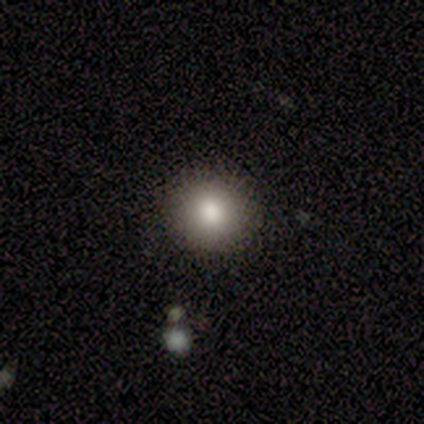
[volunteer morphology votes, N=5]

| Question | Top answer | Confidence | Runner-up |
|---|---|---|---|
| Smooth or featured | smooth | 100% | — |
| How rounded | round | 100% | — |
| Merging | none | 100% | — |